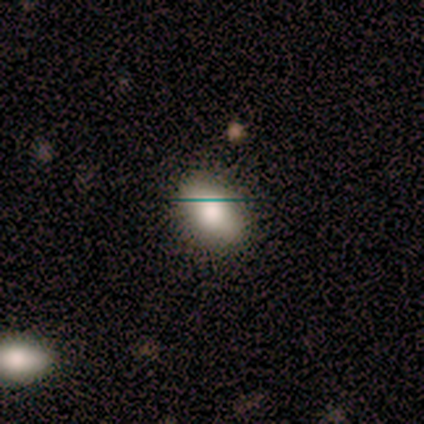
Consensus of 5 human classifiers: Overall: smooth (100%). How rounded: in between (80%). Merging: none (80%).